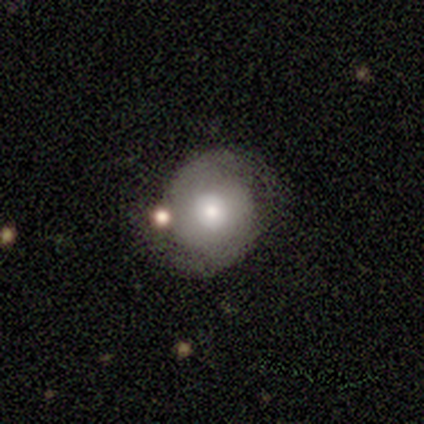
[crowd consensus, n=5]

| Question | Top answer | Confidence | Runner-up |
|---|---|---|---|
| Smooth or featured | featured or disk | 60% | smooth (40%) |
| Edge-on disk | no | 100% | — |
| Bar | no | 67% | weak (33%) |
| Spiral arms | yes | 67% | no (33%) |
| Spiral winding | tight | 50% | tied: medium (50%) |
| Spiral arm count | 2 | 100% | — |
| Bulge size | moderate | 100% | — |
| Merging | none | 60% | minor disturbance (40%) |